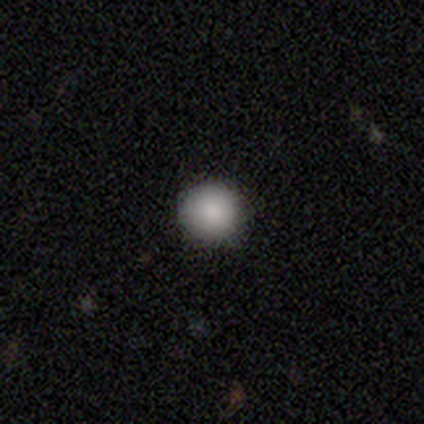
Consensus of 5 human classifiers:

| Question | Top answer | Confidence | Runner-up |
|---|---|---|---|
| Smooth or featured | smooth | 80% | star or artifact (20%) |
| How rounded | round | 100% | — |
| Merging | none | 100% | — |